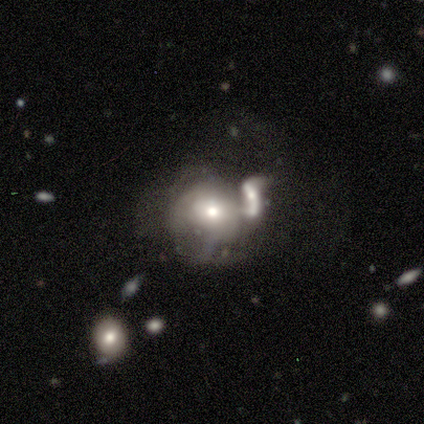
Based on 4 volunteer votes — Smooth or featured?
  - smooth: 50% * (tied)
  - featured or disk: 50% * (tied)
  - star or artifact: 0%
How rounded?
  - round: 100% *
  - in between: 0%
  - cigar-shaped: 0%
Merging?
  - merger: 75% *
  - major disturbance: 25%
  - none: 0%
  - minor disturbance: 0%